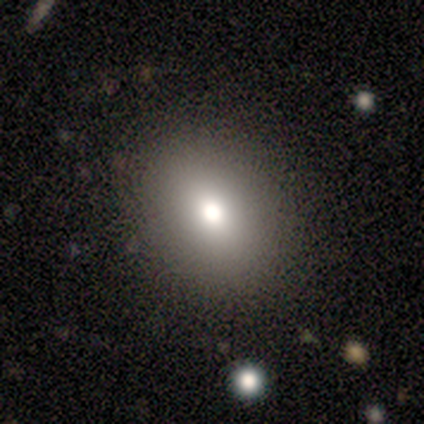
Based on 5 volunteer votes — A smooth galaxy with no disk features (100%) that is round (100%). Merging: none (100%).